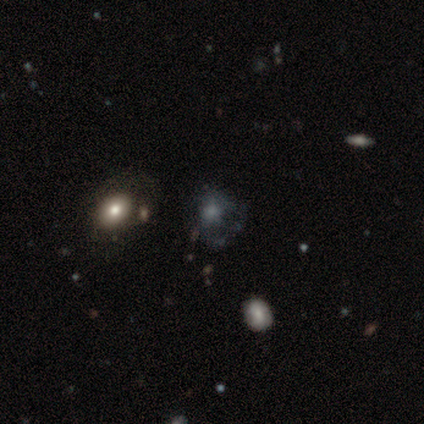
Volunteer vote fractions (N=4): This is possibly a featured or disk galaxy (50%). It is clearly not viewed edge-on (100%). Bar: clearly no (100%). Spiral arm pattern: possibly yes (50%, tied with no). Spiral arm count: clearly can't tell (100%). Spiral winding: clearly tight (100%). Central bulge: clearly none (100%). Merging: marginally none (33%, tied with minor disturbance and major disturbance).